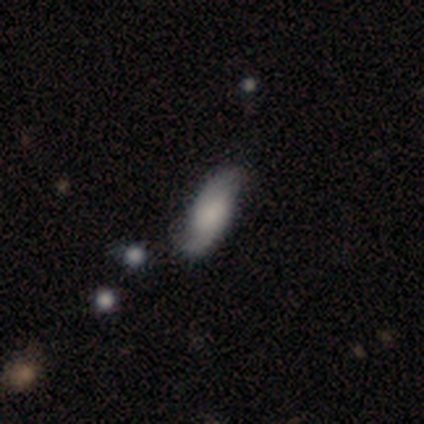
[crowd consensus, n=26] This is marginally a smooth galaxy (42%, tied with featured or disk). How rounded: likely in between (64%). Merging: likely none (68%).